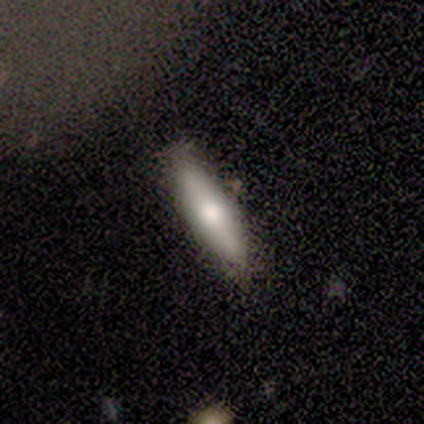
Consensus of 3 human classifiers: Q: Smooth or featured?
A: smooth (100%)
Q: How rounded?
A: in between (67%); runner-up: cigar-shaped (33%)
Q: Merging?
A: none (100%)